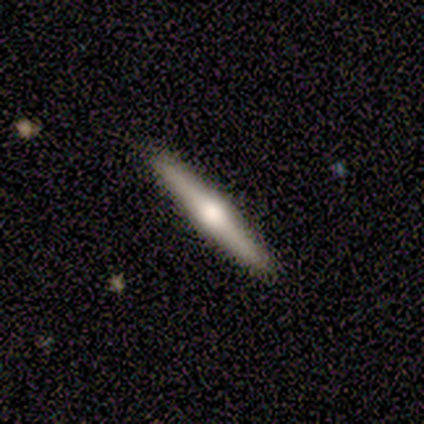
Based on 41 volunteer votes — Smooth or featured? featured or disk (68%)
Edge-on disk? yes (100%)
Edge-on bulge? rounded (96%)
Merging? none (88%)